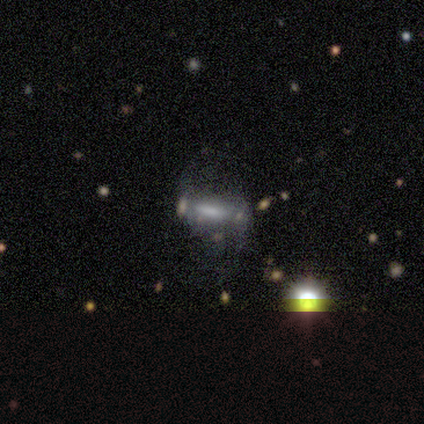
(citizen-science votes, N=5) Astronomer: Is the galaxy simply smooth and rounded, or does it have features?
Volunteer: featured or disk — 80%.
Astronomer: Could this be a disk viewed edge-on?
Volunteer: no — 75%.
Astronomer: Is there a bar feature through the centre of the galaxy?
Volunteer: strong — 33%, tied with weak and no at 33%.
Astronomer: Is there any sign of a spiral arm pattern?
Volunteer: no — 67%.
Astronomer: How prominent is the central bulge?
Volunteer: large — 33%, tied with small and none at 33%.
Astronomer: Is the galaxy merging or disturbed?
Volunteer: none — 40% (runner-up: minor disturbance, 20%).